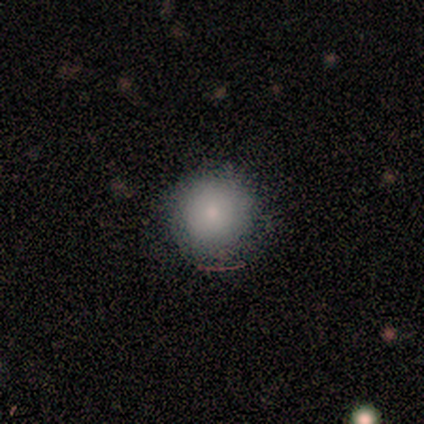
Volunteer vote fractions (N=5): Q: Smooth or featured?
A: smooth (60%); runner-up: featured or disk (40%)
Q: How rounded?
A: round (100%)
Q: Merging?
A: none (80%); runner-up: major disturbance (20%)